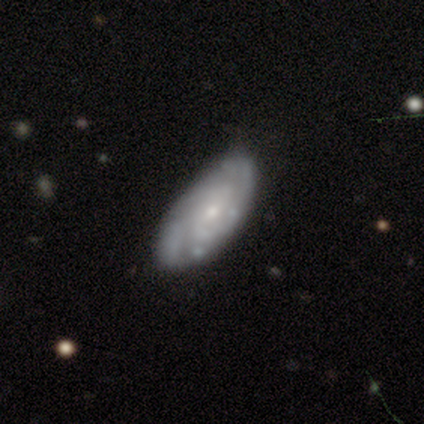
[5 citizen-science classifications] Volunteers were most divided on "bar" (2-way tie): weak: 50%, no: 50%, strong: 0%. More confident: edge-on disk — no (100%); spiral arms — yes (100%); bulge size — small (100%); smooth or featured — featured or disk (80%); spiral winding — tight (75%); merging — none (60%); spiral arm count — can't tell (50%).